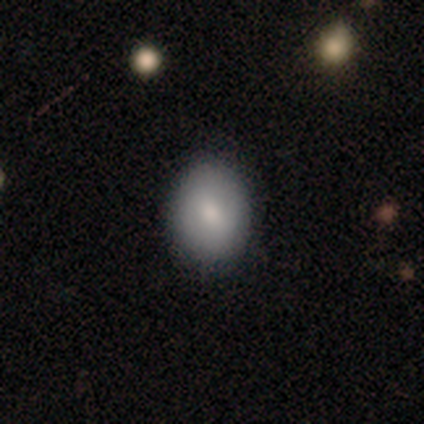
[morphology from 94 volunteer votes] Smooth or featured? 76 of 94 (81%) said smooth. How rounded? 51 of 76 (67%) said in between. Merging? 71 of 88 (81%) said none.